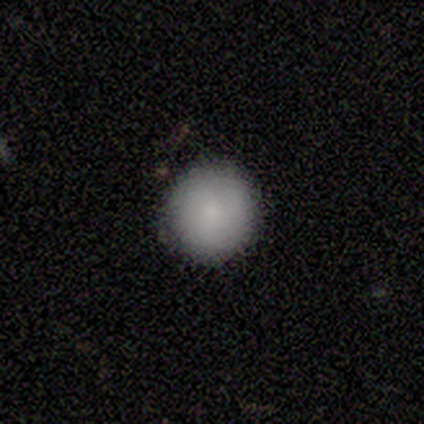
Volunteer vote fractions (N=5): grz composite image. It shows a smooth galaxy with no disk features (100%) that is round (100%). Merging: none (100%).